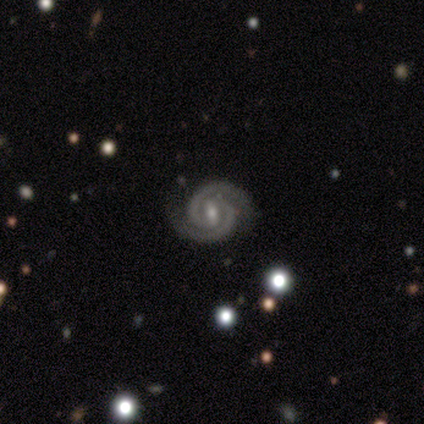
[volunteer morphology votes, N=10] A featured or disk galaxy (100%) with a weak bar (70%), 2 (100%) tight (80%) spiral arms (100%) and a moderate central bulge (80%). Merging: none (100%).